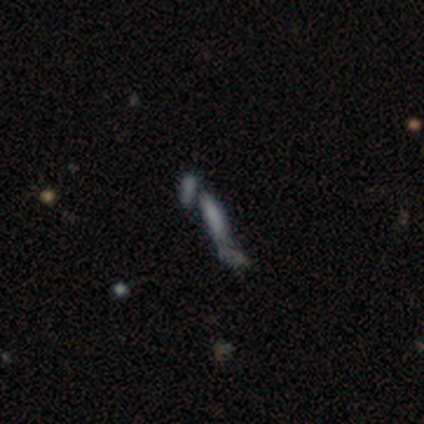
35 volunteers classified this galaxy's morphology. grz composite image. It shows a smooth galaxy with no disk features (57%) that is cigar-shaped (80%). Merging: merger (43%).